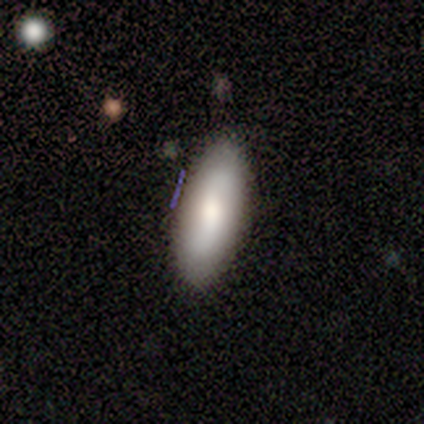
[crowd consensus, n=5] Smooth or featured?
  - smooth: 80% *
  - featured or disk: 20%
  - star or artifact: 0%
How rounded?
  - in between: 50% * (tied)
  - cigar-shaped: 50% * (tied)
  - round: 0%
Merging?
  - none: 60% *
  - minor disturbance: 20%
  - major disturbance: 20%
  - merger: 0%